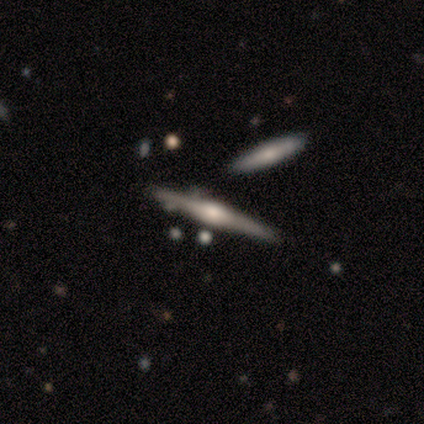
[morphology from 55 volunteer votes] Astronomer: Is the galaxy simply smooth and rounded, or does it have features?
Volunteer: featured or disk — 89%.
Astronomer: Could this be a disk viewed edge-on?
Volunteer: yes — 98%.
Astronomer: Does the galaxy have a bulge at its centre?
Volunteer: rounded — 88%.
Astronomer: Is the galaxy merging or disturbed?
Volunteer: none — 80%.